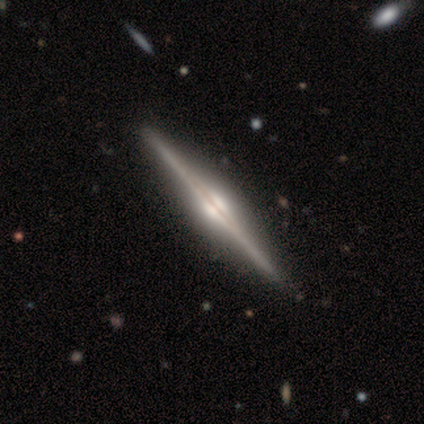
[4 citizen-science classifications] Overall: featured or disk (100%). Edge-on disk: yes (100%). Edge-on bulge: rounded (100%). Merging: none (75%).